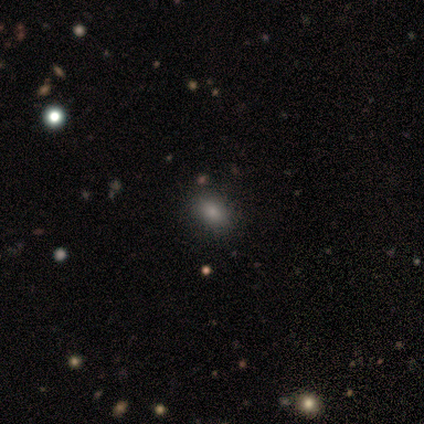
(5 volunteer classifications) Morphology: type=smooth (80%); roundness=round (50%, tied with in between); merging=none (80%).